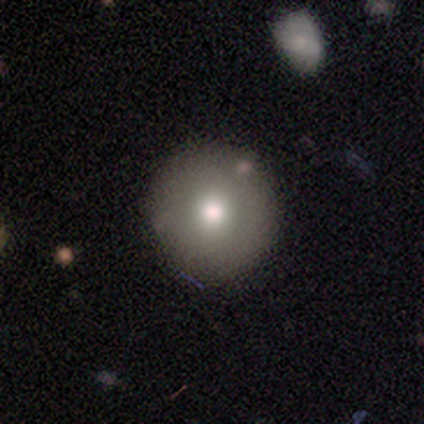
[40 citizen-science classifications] smooth-or-featured: smooth: 75% | featured or disk: 25% | star or artifact: 0%
  how-rounded: round: 100% | in between: 0% | cigar-shaped: 0%
  merging: none: 65% | minor disturbance: 5% | major disturbance: 2% | merger: 0%